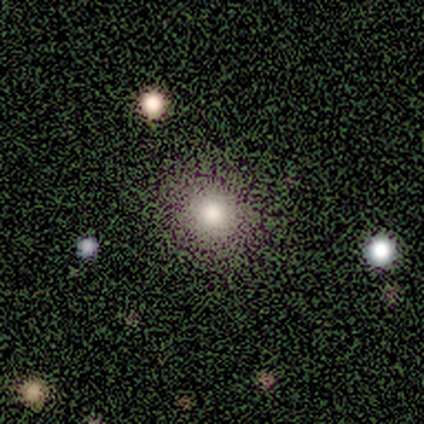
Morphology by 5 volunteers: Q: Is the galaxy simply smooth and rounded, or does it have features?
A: smooth — 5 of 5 (100%).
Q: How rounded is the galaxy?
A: round — 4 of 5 (80%).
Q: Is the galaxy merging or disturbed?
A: none — 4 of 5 (80%).